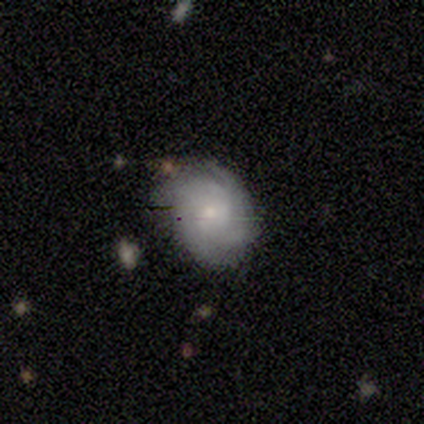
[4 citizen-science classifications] Smooth or featured? featured or disk (75%)
Edge-on disk? no (100%)
Bar? no (67%)
Spiral arms? yes (100%)
Spiral winding? tight (67%)
Spiral arm count? 4 (67%)
Bulge size? moderate (67%)
Merging? none (75%)